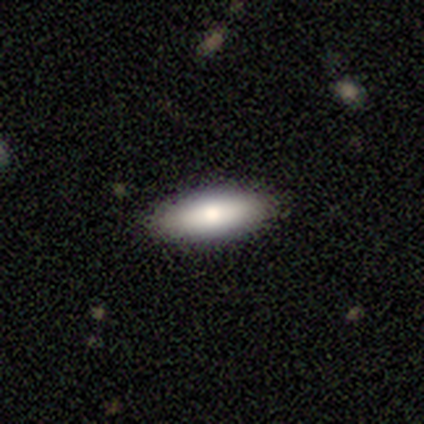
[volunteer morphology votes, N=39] Smooth or featured? 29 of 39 (74%) said smooth. How rounded? 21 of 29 (72%) said in between. Merging? 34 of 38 (89%) said none.